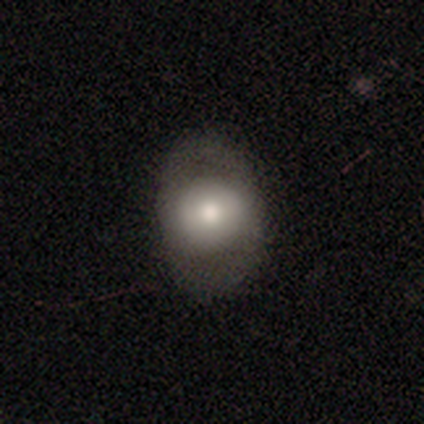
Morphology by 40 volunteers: smooth_or_featured: smooth (p=0.55) [alt: featured or disk p=0.33]
how_rounded: in between (p=0.68) [alt: round p=0.32]
merging: none (p=0.69) [alt: minor disturbance p=0.26]